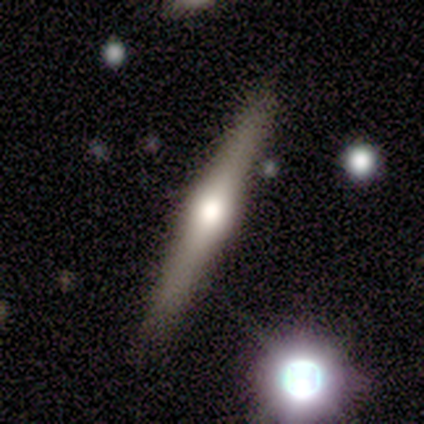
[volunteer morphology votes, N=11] Smooth or featured?
  - featured or disk: 55% *
  - smooth: 27%
  - star or artifact: 18%
Edge-on disk?
  - yes: 100% *
  - no: 0%
Edge-on bulge?
  - rounded: 83% *
  - none: 17%
  - boxy: 0%
Merging?
  - none: 100% *
  - minor disturbance: 0%
  - major disturbance: 0%
  - merger: 0%